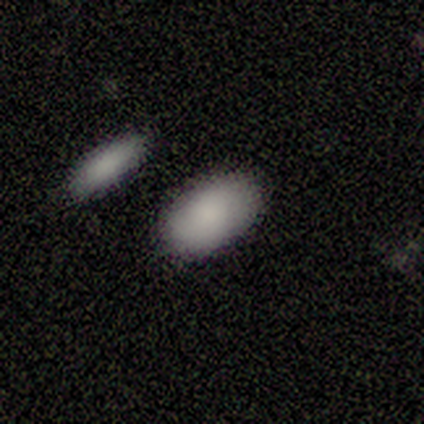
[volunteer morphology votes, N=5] A smooth galaxy with no disk features (100%) that is in between round and cigar-shaped (100%).

Vote fractions:
- Smooth or featured? smooth: 100% / featured or disk: 0% / star or artifact: 0%
- How rounded? in between: 100% / round: 0% / cigar-shaped: 0%
- Merging? none: 100% / minor disturbance: 0% / major disturbance: 0% / merger: 0%